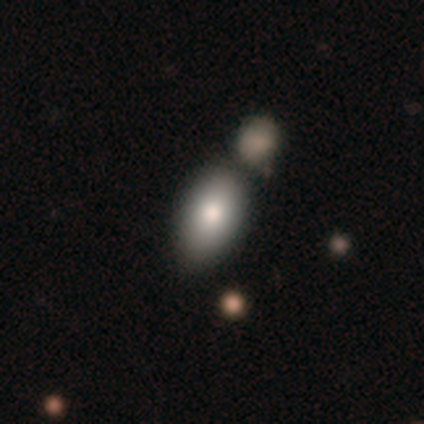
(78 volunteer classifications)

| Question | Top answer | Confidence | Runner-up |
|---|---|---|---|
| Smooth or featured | smooth | 85% | featured or disk (8%) |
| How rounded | in between | 88% | round (11%) |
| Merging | merger | 43% | none (19%) |